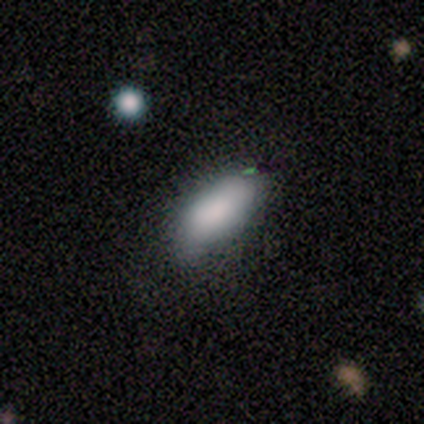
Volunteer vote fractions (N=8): This appears to be a smooth galaxy with no disk features (88%) that is in between round and cigar-shaped (100%). Merging: none (62%).